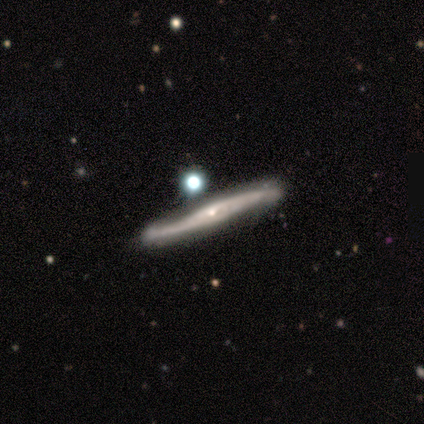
Morphology: type=featured or disk (100%); edge-on=yes (67%); edge-on bulge=none (100%); merging=none (67%).